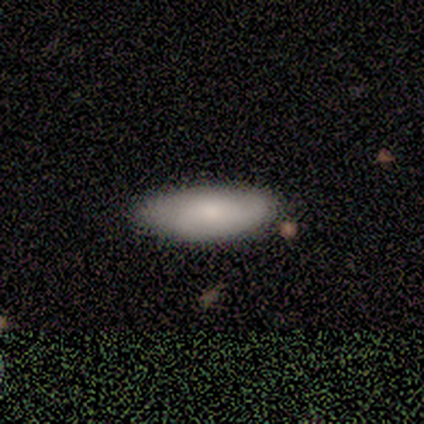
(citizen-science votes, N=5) smooth-or-featured: smooth: 100% | featured or disk: 0% | star or artifact: 0%
  how-rounded: in between: 60% | cigar-shaped: 40% | round: 0%
  merging: none: 100% | minor disturbance: 0% | major disturbance: 0% | merger: 0%